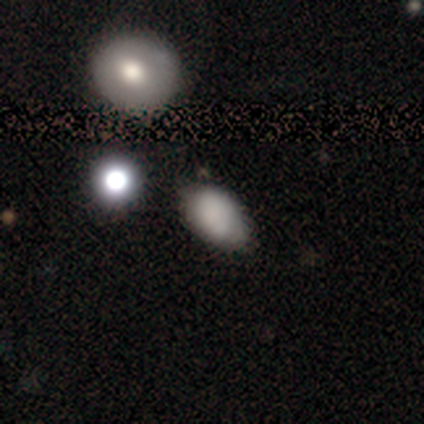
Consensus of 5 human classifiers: Smooth or featured? smooth (80%)
How rounded? round (50%, tied with in between)
Merging? none (50%)